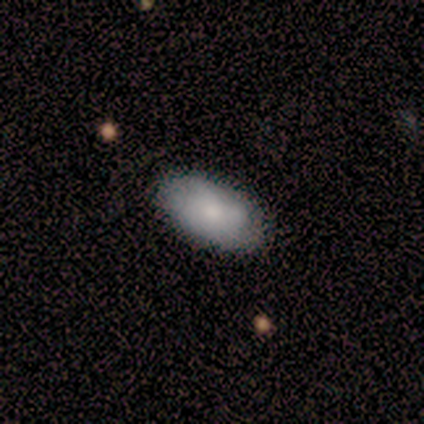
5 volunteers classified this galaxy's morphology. A smooth galaxy with no disk features (80%) that is in between round and cigar-shaped (100%).

Vote fractions:
- Smooth or featured? smooth: 80% / featured or disk: 20% / star or artifact: 0%
- How rounded? in between: 100% / round: 0% / cigar-shaped: 0%
- Merging? none: 100% / minor disturbance: 0% / major disturbance: 0% / merger: 0%